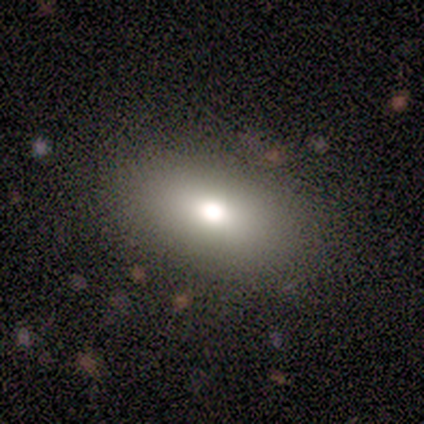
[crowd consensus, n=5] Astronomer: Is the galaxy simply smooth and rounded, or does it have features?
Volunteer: smooth — 100%.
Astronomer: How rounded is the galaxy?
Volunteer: in between — 100%.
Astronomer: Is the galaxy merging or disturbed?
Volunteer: none — 80%.